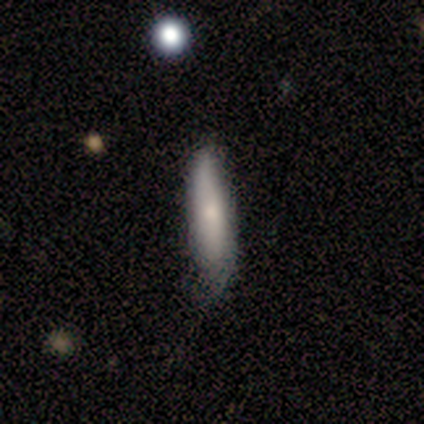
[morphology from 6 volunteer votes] Smooth or featured? smooth (83%)
How rounded? cigar-shaped (60%)
Merging? none (60%)